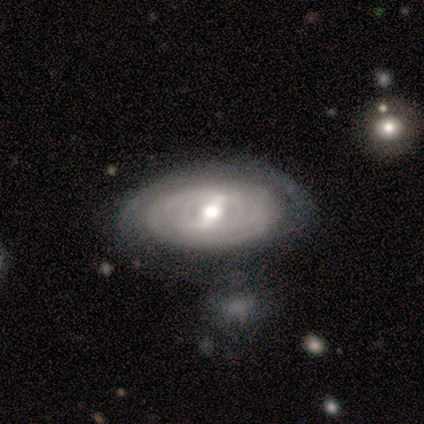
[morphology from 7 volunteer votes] This appears to be a featured or disk galaxy (100%) with a strong bar (43%, tied with weak), tight (100%) spiral arms (71%) and a moderate central bulge (57%). Merging: none (71%).